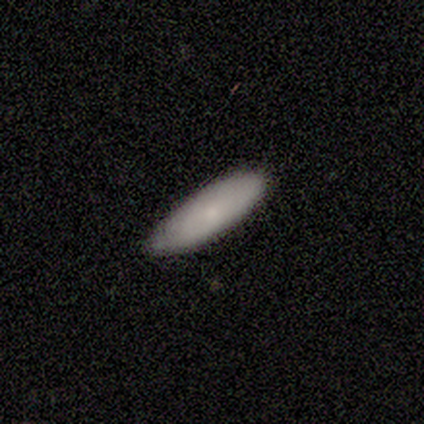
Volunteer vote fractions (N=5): A smooth galaxy with no disk features (100%) that is in between round and cigar-shaped (100%). Merging: minor disturbance (60%).